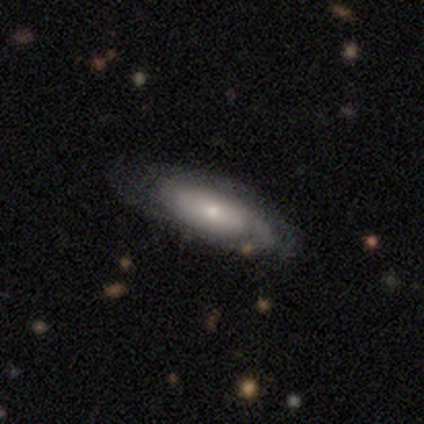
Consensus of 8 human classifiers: This is likely a featured or disk galaxy (62%). It is likely not viewed edge-on (60%). Bar: clearly no (100%). Spiral arm pattern: likely yes (67%). Spiral arm count: clearly can't tell (100%). Spiral winding: possibly tight (50%, tied with medium). Central bulge: likely small (67%). Merging: clearly none (100%).